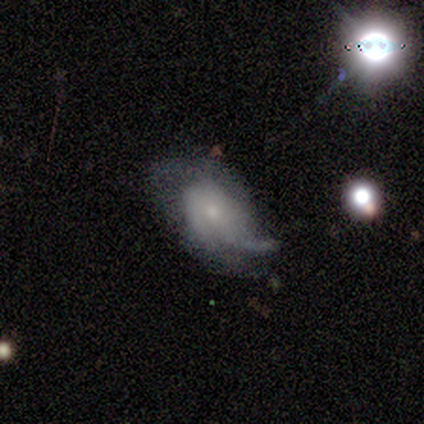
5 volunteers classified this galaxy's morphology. Smooth or featured?
  - smooth: 60% *
  - featured or disk: 40%
  - star or artifact: 0%
How rounded?
  - in between: 100% *
  - round: 0%
  - cigar-shaped: 0%
Merging?
  - major disturbance: 40% *
  - none: 20%
  - minor disturbance: 20%
  - merger: 20%